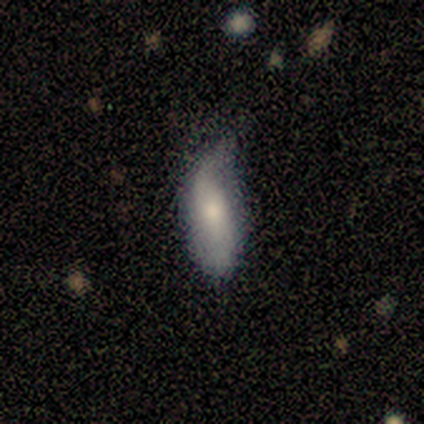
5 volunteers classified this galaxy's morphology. Smooth or featured? 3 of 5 (60%) said smooth. How rounded? 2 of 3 (67%) said in between. Merging? 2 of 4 (50%) said minor disturbance.